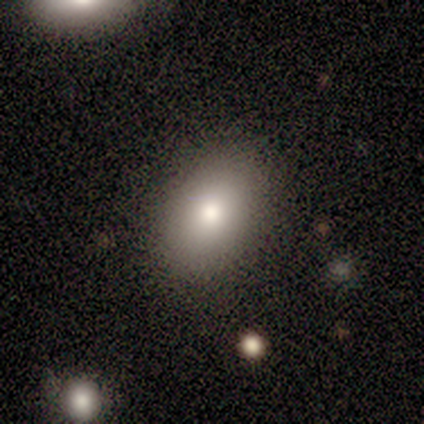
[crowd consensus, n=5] smooth_or_featured: smooth (p=1.00)
how_rounded: in between (p=0.80) [alt: round p=0.20]
merging: none (p=0.80) [alt: minor disturbance p=0.20]